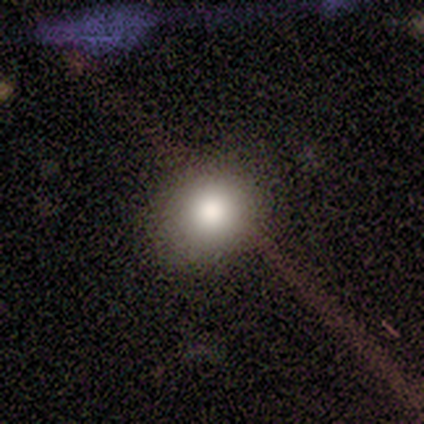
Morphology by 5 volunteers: type=smooth (60%); roundness=in between (67%); merging=none (67%).